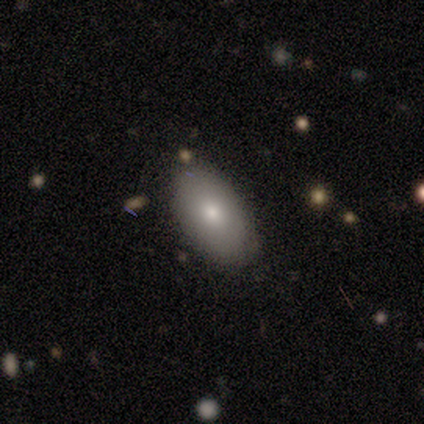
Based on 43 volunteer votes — Smooth or featured? smooth (88%)
How rounded? in between (92%)
Merging? none (90%)